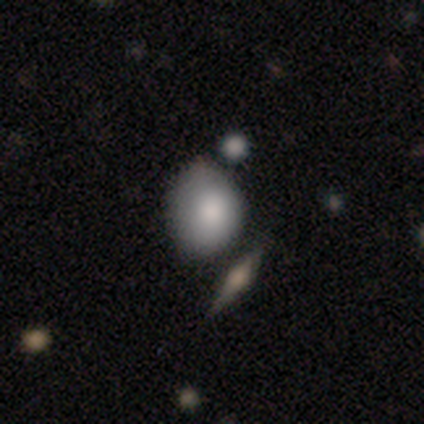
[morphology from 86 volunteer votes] type=smooth (81%); roundness=round (57%); merging=none (43%).